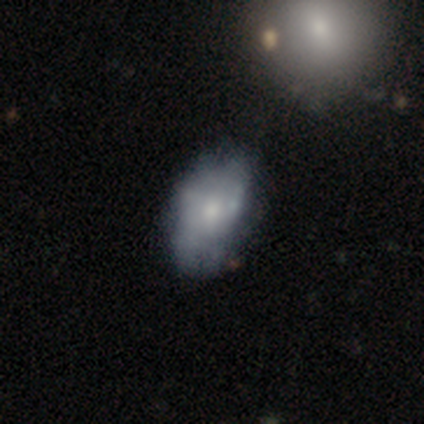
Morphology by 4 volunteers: A smooth galaxy with no disk features (50%) that is in between round and cigar-shaped (100%). Merging: none (67%).